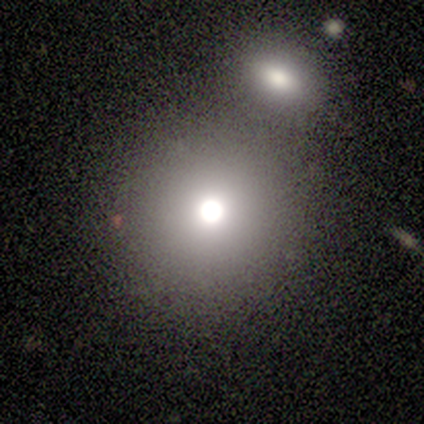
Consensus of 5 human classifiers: smooth_or_featured: smooth (p=0.60) [alt: star or artifact p=0.40]
how_rounded: round (p=1.00)
merging: none (p=0.67) [alt: merger p=0.33]